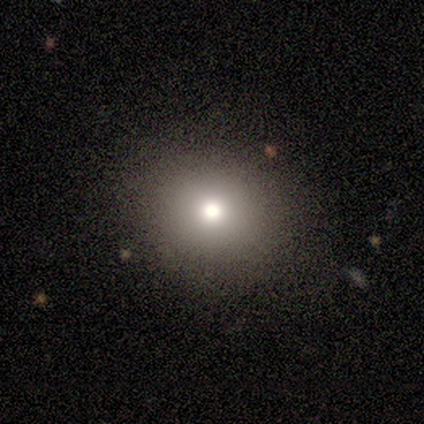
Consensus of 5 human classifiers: A smooth galaxy with no disk features (100%) that is round (60%). Merging: none (100%).